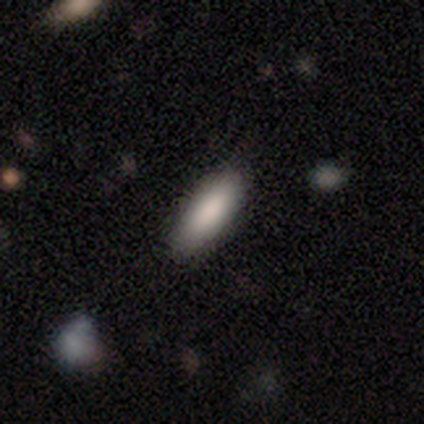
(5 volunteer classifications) A smooth galaxy with no disk features (80%) that is cigar-shaped (75%). Merging: minor disturbance (60%).